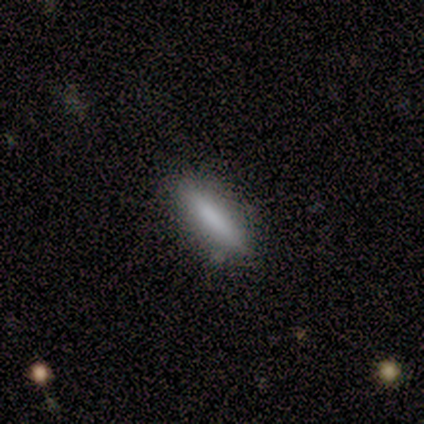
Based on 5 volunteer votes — smooth_or_featured: smooth (p=0.80) [alt: featured or disk p=0.20]
how_rounded: cigar-shaped (p=0.75) [alt: in between p=0.25]
merging: none (p=0.80) [alt: minor disturbance p=0.20]